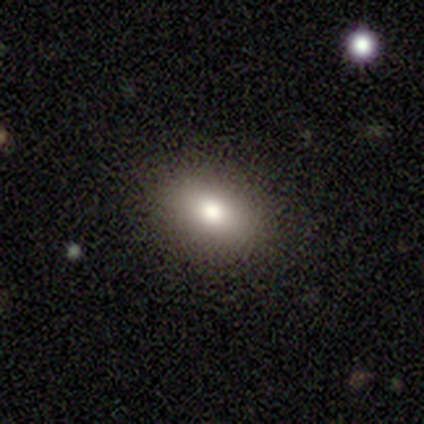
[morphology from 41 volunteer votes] smooth-or-featured: smooth: 73% | star or artifact: 15% | featured or disk: 12%
  how-rounded: in between: 87% | round: 10% | cigar-shaped: 3%
  merging: none: 77% | minor disturbance: 14% | major disturbance: 9% | merger: 0%